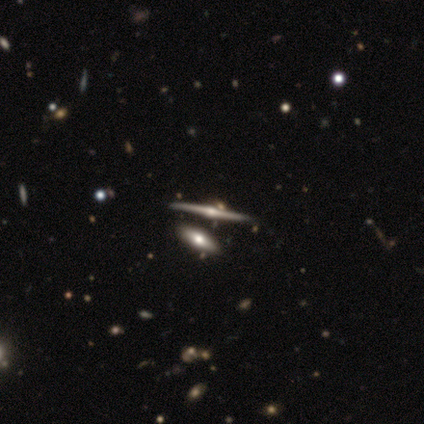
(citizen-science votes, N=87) A featured or disk galaxy (77%) viewed edge-on (97%) with a rounded central bulge (95%).

Vote fractions:
- Smooth or featured? featured or disk: 77% / smooth: 17% / star or artifact: 6%
- Edge-on disk? yes: 97% / no: 3%
- Edge-on bulge? rounded: 95% / boxy: 3% / none: 2%
- Merging? none: 76% / merger: 12% / minor disturbance: 9% / major disturbance: 4%